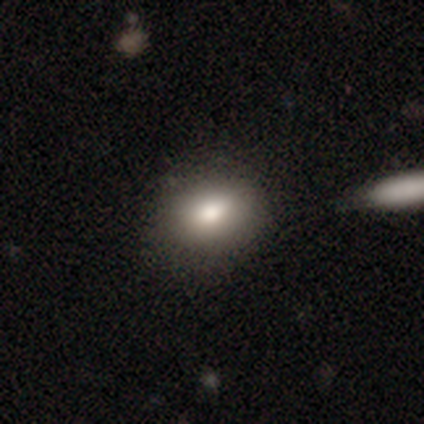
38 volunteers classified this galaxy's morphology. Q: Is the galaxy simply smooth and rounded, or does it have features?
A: smooth — 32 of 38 (84%).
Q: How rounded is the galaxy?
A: in between — 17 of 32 (53%).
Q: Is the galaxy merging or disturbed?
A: none — 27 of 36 (75%).